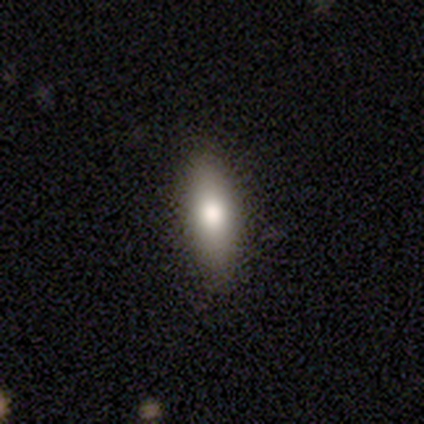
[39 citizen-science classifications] smooth 82%, featured or disk 10%, star or artifact 8%. Down the decision tree: how rounded — in between (62%); merging — none (83%).